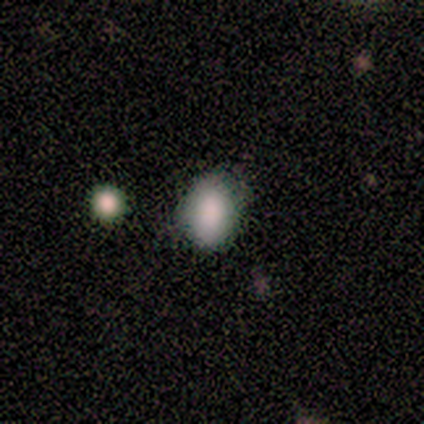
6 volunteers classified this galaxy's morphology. A smooth galaxy with no disk features (100%) that is in between round and cigar-shaped (83%).

Vote fractions:
- Smooth or featured? smooth: 100% / featured or disk: 0% / star or artifact: 0%
- How rounded? in between: 83% / round: 17% / cigar-shaped: 0%
- Merging? none: 67% / minor disturbance: 33% / major disturbance: 0% / merger: 0%